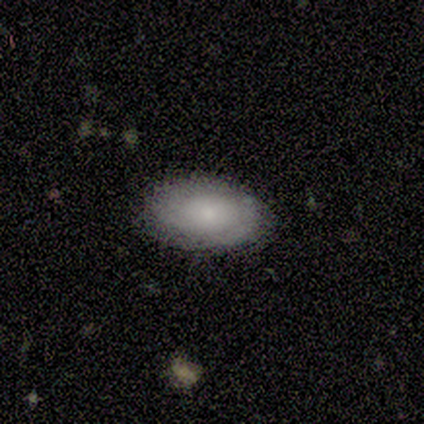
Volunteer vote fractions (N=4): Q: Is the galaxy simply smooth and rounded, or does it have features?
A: smooth — 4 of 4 (100%).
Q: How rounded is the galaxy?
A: in between — 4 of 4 (100%).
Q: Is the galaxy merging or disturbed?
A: none — 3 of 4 (75%).